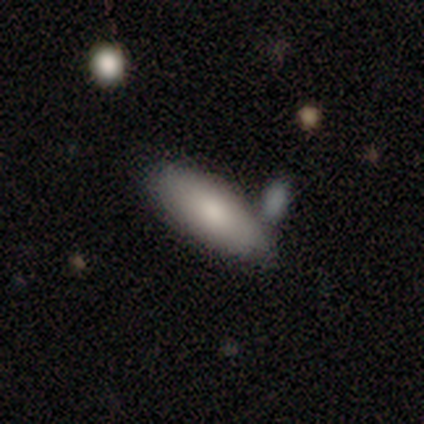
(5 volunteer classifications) A smooth galaxy with no disk features (100%) that is in between round and cigar-shaped (100%). Merging: none (60%).